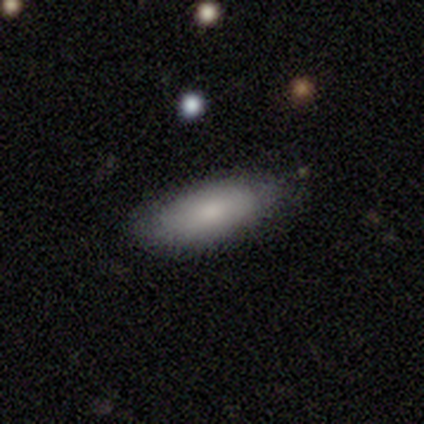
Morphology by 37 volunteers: This appears to be a smooth galaxy with no disk features (84%) that is in between round and cigar-shaped (77%). Merging: none (78%).